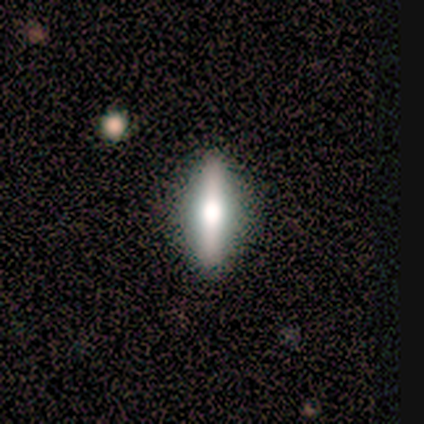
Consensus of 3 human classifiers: A smooth galaxy with no disk features (67%) that is in between round and cigar-shaped (50%, tied with cigar-shaped). Merging: none (100%).